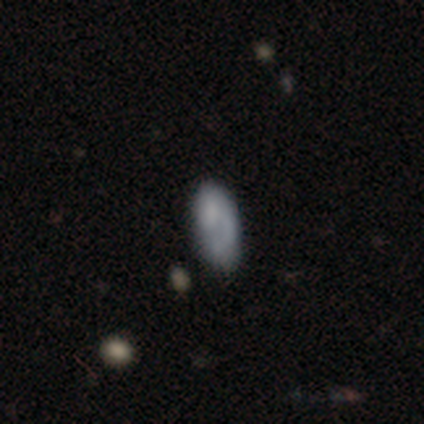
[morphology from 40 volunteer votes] This appears to be a smooth galaxy with no disk features (57%) that is in between round and cigar-shaped (96%). Merging: none (51%).